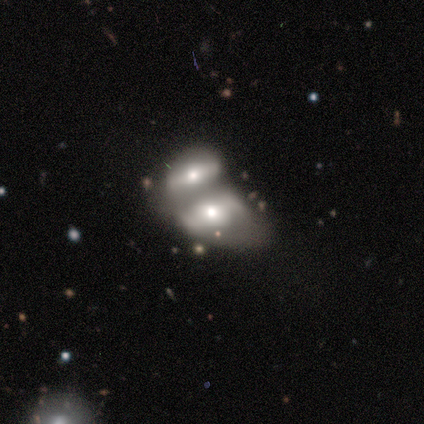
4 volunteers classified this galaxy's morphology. Smooth or featured? 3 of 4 (75%) said smooth. How rounded? 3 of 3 (100%) said in between. Merging? 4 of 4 (100%) said merger.